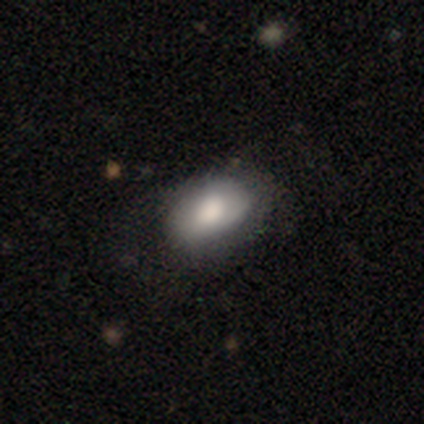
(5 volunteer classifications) smooth-or-featured: smooth: 80% | featured or disk: 20% | star or artifact: 0%
  how-rounded: in between: 100% | round: 0% | cigar-shaped: 0%
  merging: none: 60% | minor disturbance: 20% | major disturbance: 20% | merger: 0%